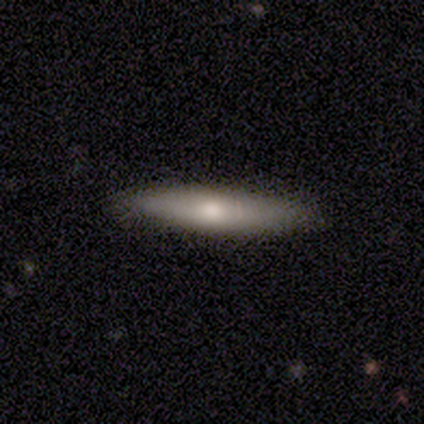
Smooth or featured? 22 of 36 (61%) said smooth. How rounded? 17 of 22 (77%) said cigar-shaped. Merging? 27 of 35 (77%) said none.